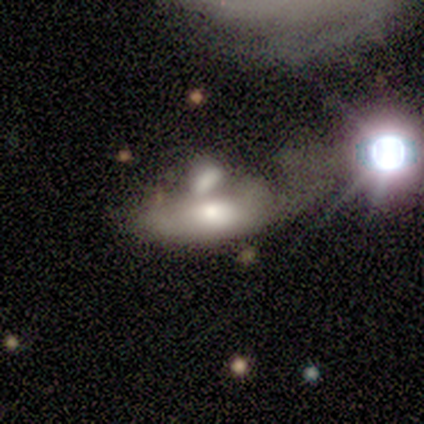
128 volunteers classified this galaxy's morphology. Overall: smooth (45%; featured or disk 44%). How rounded: in between (84%). Merging: merger (51%; major disturbance 21%).